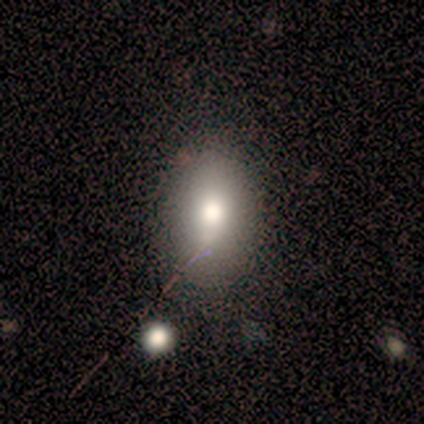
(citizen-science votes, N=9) This is possibly a smooth galaxy (56%). How rounded: likely in between (60%). Merging: clearly none (83%).